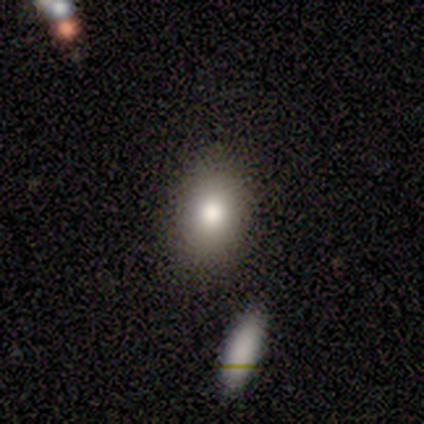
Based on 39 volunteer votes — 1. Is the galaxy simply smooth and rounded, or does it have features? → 85% smooth, 10% star or artifact, 5% featured or disk.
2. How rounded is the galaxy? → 67% in between, 33% round, 0% cigar-shaped.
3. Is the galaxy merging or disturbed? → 94% none, 6% minor disturbance, 0% major disturbance, 0% merger.